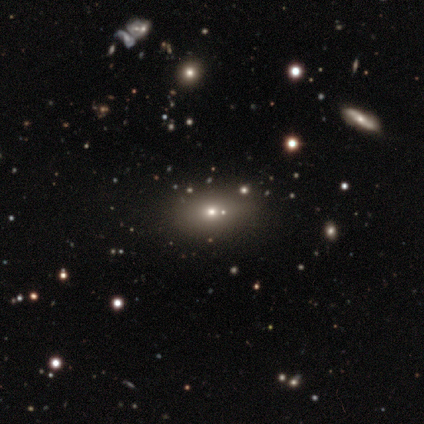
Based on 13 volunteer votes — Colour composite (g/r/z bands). It shows a smooth galaxy with no disk features (62%) that is in between round and cigar-shaped (62%). Merging: none (78%).